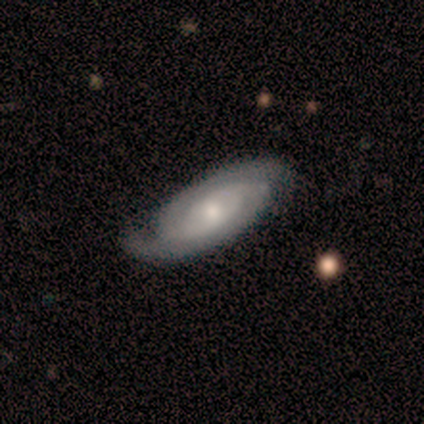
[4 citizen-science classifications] featured or disk 100%, smooth 0%, star or artifact 0%. Down the decision tree: edge-on disk — no (100%); bar — no (75%); spiral arms — yes (100%); spiral arm count — 2 (50%, tied with can't tell); spiral winding — tight (75%); bulge size — small (75%); merging — none (75%).